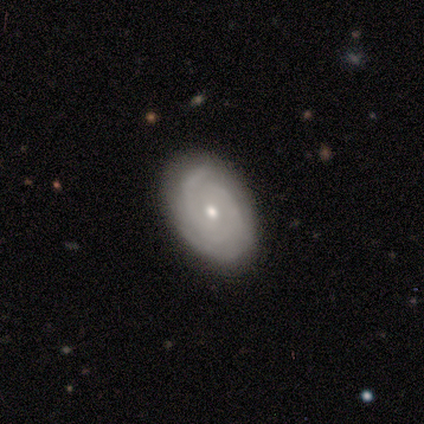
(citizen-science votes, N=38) A featured or disk galaxy (76%) with no bar (79%), 3 (36%) tight (64%) spiral arms (97%) and a small central bulge (62%). Merging: none (94%).